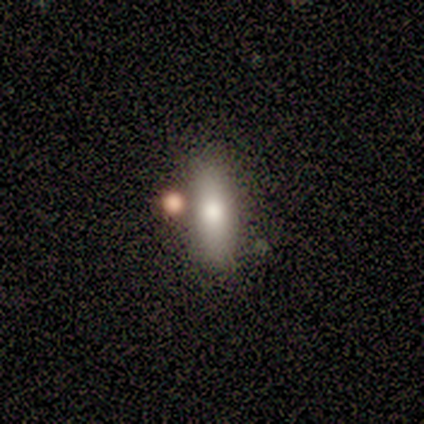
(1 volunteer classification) Morphology: type=smooth (100%); roundness=cigar-shaped (100%); merging=none (100%).